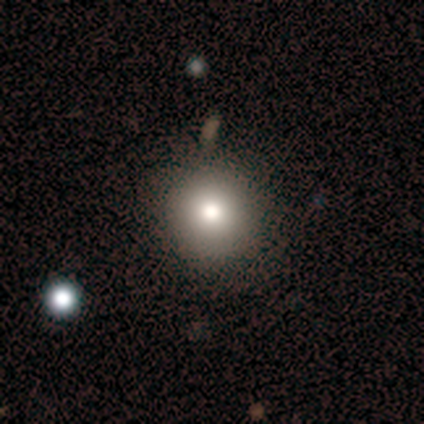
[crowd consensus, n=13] smooth 69%, star or artifact 23%, featured or disk 8%. Down the decision tree: how rounded — round (89%); merging — none (50%).